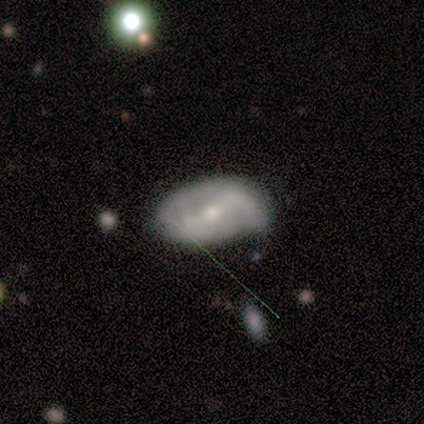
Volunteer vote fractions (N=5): Smooth or featured?
  - featured or disk: 80% *
  - smooth: 20%
  - star or artifact: 0%
Edge-on disk?
  - no: 75% *
  - yes: 25%
Bar?
  - weak: 67% *
  - strong: 33%
  - no: 0%
Spiral arms?
  - yes: 67% *
  - no: 33%
Spiral winding?
  - loose: 100% *
  - tight: 0%
  - medium: 0%
Spiral arm count?
  - 2: 50% * (tied)
  - can't tell: 50% * (tied)
  - 1: 0%
  - 3: 0%
  - 4: 0%
  - more than 4: 0%
Bulge size?
  - small: 67% *
  - moderate: 33%
  - dominant: 0%
  - large: 0%
  - none: 0%
Merging?
  - none: 80% *
  - minor disturbance: 20%
  - major disturbance: 0%
  - merger: 0%